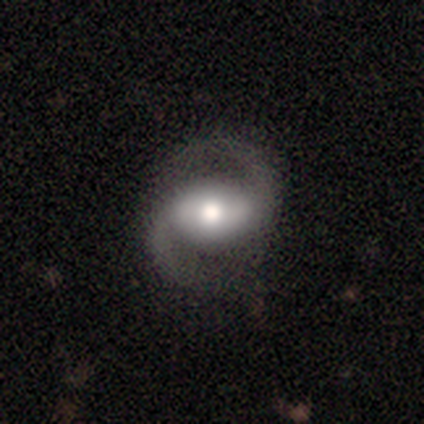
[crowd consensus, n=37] featured or disk 92%, smooth 8%, star or artifact 0%. Down the decision tree: edge-on disk — no (97%); bar — strong (52%); spiral arms — yes (97%); spiral arm count — 2 (100%); spiral winding — loose (50%); bulge size — moderate (48%); merging — none (92%).